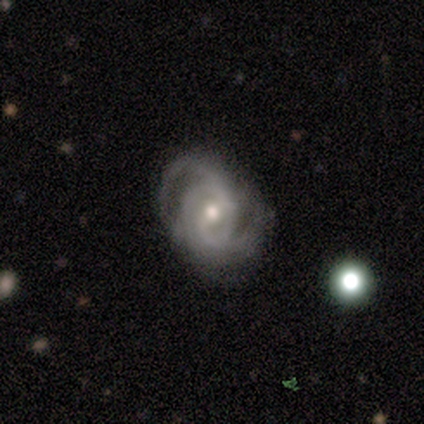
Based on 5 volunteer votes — smooth-or-featured: featured or disk: 100% | smooth: 0% | star or artifact: 0%
  disk-edge-on: no: 100% | yes: 0%
    bar: no: 60% | weak: 40% | strong: 0%
    has-spiral-arms: yes: 100% | no: 0%
      spiral-winding: tight: 60% | medium: 20% | loose: 20%
      spiral-arm-count: 2: 40% (tied) | 3: 40% (tied) | can't tell: 20% | 1: 0% | 4: 0% | more than 4: 0%
    bulge-size: moderate: 80% | small: 20% | dominant: 0% | large: 0% | none: 0%
  merging: minor disturbance: 60% | none: 40% | major disturbance: 0% | merger: 0%